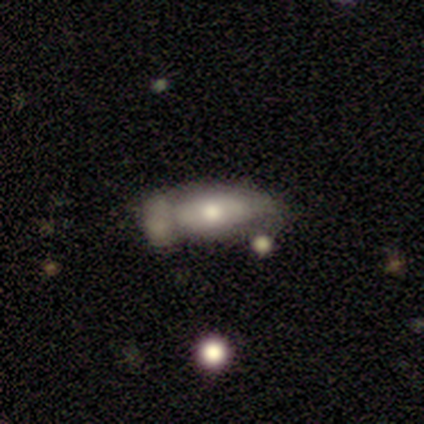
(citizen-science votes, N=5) Overall: smooth (80%). How rounded: in between (100%). Merging: none (40%; minor disturbance 20%).